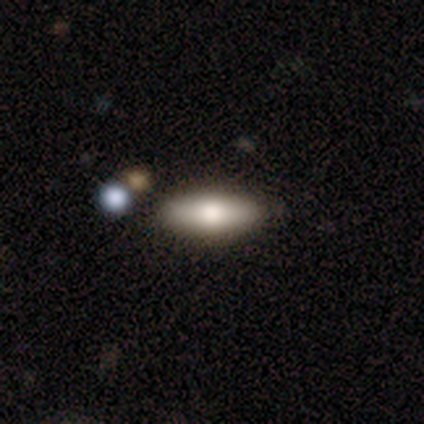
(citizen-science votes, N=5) Q: Smooth or featured?
A: smooth (60%); runner-up: featured or disk (40%)
Q: How rounded?
A: in between (67%); runner-up: cigar-shaped (33%)
Q: Merging?
A: none (100%)